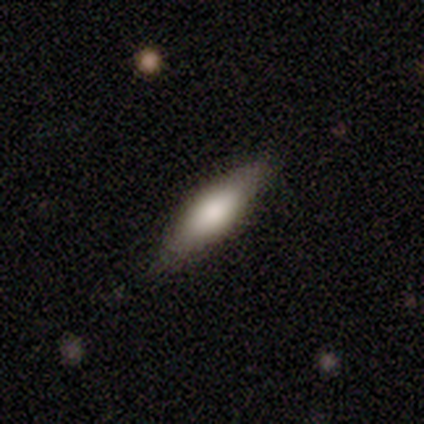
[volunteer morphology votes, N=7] This is likely a smooth galaxy (71%). How rounded: likely cigar-shaped (60%). Merging: likely none (71%).